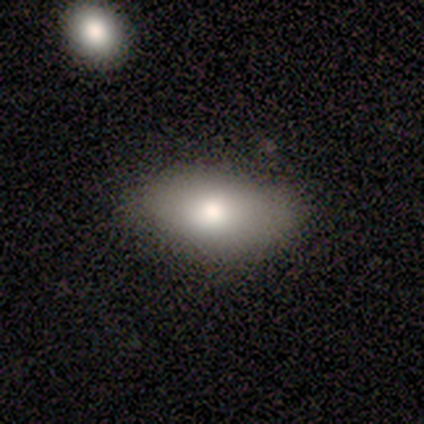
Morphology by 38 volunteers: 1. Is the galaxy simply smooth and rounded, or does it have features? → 71% smooth, 18% featured or disk, 11% star or artifact.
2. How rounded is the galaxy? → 93% in between, 7% round, 0% cigar-shaped.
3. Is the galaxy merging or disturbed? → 82% none, 12% minor disturbance, 6% major disturbance, 0% merger.